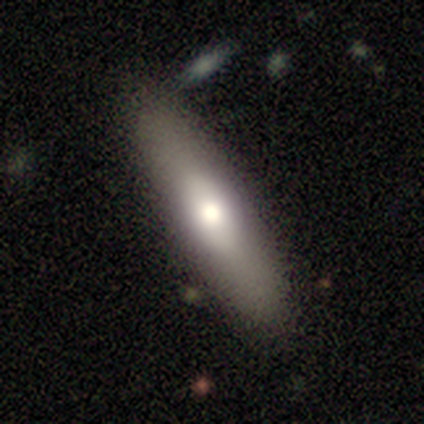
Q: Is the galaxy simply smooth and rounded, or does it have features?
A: smooth — 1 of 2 (50%, tied with star or artifact).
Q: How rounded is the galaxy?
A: in between — 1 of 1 (100%).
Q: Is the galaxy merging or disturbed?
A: none — 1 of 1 (100%).